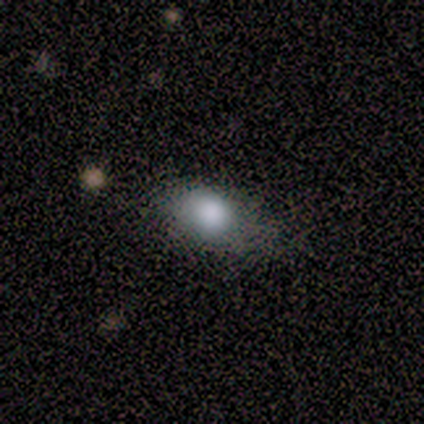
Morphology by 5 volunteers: type=smooth (100%); roundness=in between (80%); merging=none (60%).